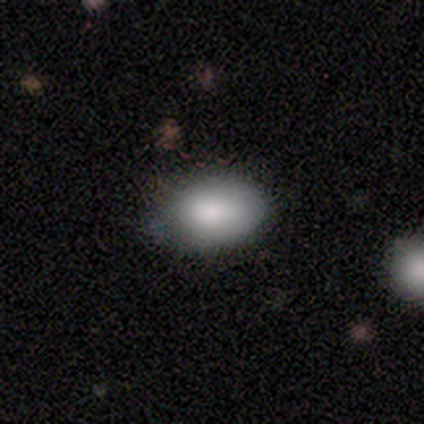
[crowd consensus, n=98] Smooth or featured? smooth (83%)
How rounded? in between (86%)
Merging? none (73%)